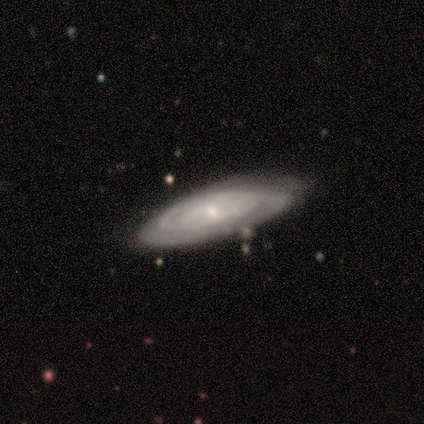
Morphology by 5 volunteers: type=smooth (60%); roundness=cigar-shaped (67%); merging=none (60%).